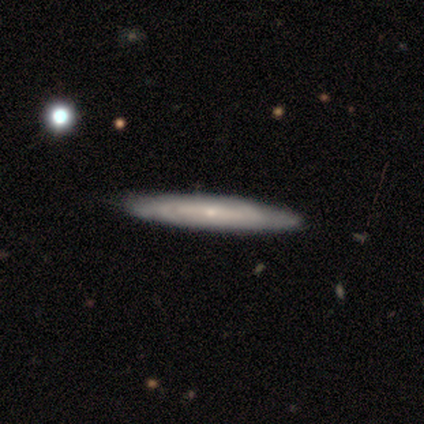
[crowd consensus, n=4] A smooth galaxy with no disk features (50%, tied with featured or disk) that is cigar-shaped (100%).

Vote fractions:
- Smooth or featured? smooth: 50% (tied) / featured or disk: 50% (tied) / star or artifact: 0%
- How rounded? cigar-shaped: 100% / round: 0% / in between: 0%
- Merging? none: 75% / minor disturbance: 25% / major disturbance: 0% / merger: 0%